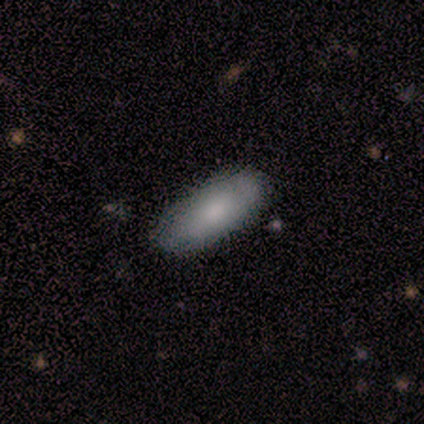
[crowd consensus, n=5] Overall: smooth (100%). How rounded: in between (100%). Merging: none (80%).